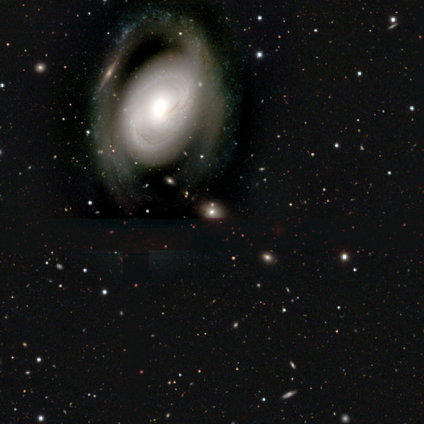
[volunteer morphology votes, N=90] smooth_or_featured: featured or disk (p=0.68) [alt: smooth p=0.28]
disk_edge_on: no (p=1.00)
bar: no (p=0.75) [alt: weak p=0.21]
has_spiral_arms: yes (p=0.56) [alt: no p=0.44]
spiral_winding: medium (p=0.47) [alt: tight p=0.44]
spiral_arm_count: 2 (p=0.53) [alt: can't tell p=0.32]
bulge_size: large (p=0.46) [alt: moderate p=0.43]
merging: none (p=0.52) [alt: major disturbance p=0.29]